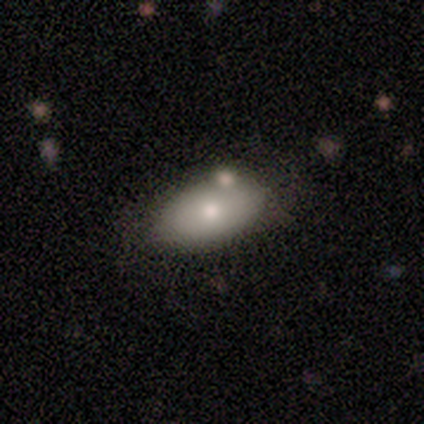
Morphology: type=smooth (100%); roundness=in between (100%); merging=none (100%).